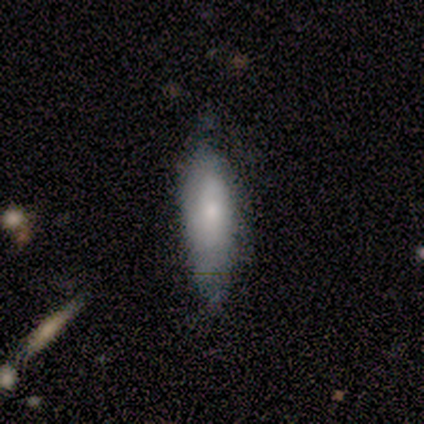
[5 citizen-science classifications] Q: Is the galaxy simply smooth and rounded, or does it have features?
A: smooth — 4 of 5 (80%).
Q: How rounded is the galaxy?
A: in between — 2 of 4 (50%, tied with cigar-shaped).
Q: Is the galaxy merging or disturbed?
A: none — 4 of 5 (80%).